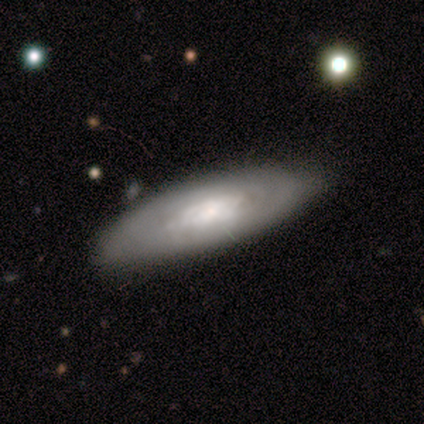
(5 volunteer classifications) smooth-or-featured: featured or disk: 80% | smooth: 20% | star or artifact: 0%
  disk-edge-on: no: 75% | yes: 25%
    bar: no: 100% | strong: 0% | weak: 0%
    has-spiral-arms: no: 67% | yes: 33%
    bulge-size: small: 67% | moderate: 33% | dominant: 0% | large: 0% | none: 0%
  merging: none: 60% | minor disturbance: 20% | major disturbance: 20% | merger: 0%